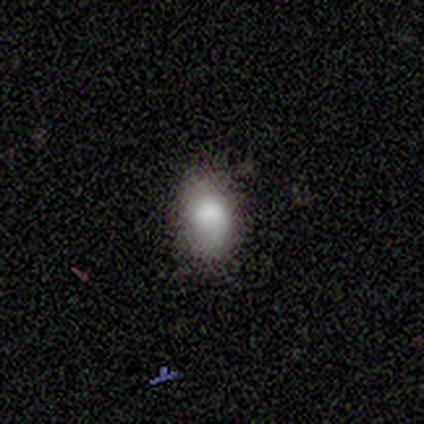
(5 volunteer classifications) A smooth galaxy with no disk features (80%) that is in between round and cigar-shaped (75%).

Vote fractions:
- Smooth or featured? smooth: 80% / featured or disk: 20% / star or artifact: 0%
- How rounded? in between: 75% / round: 25% / cigar-shaped: 0%
- Merging? none: 80% / minor disturbance: 20% / major disturbance: 0% / merger: 0%